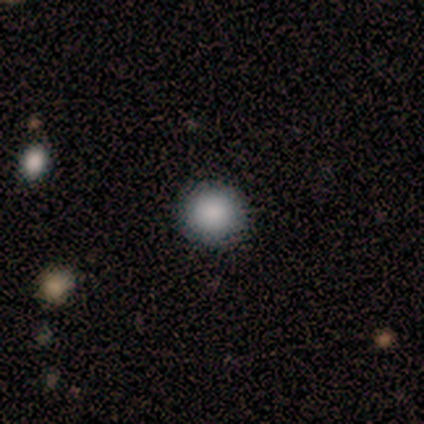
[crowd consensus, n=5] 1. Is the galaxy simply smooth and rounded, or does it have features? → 80% smooth, 20% star or artifact, 0% featured or disk.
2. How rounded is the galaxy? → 75% round, 25% in between, 0% cigar-shaped.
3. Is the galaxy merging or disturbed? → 100% none, 0% minor disturbance, 0% major disturbance, 0% merger.